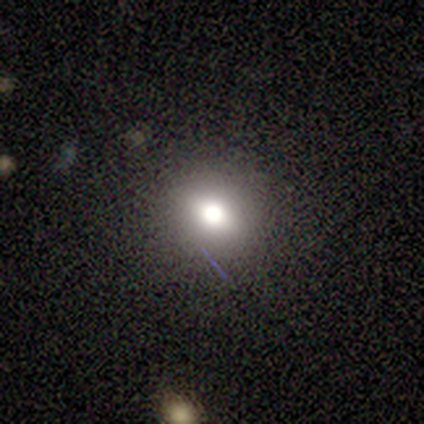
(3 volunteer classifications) Volunteers were most divided on "smooth or featured": smooth: 67%, star or artifact: 33%, featured or disk: 0%. More confident: how rounded — round (100%); merging — none (100%).